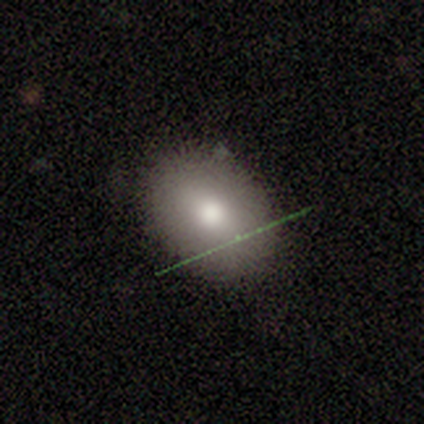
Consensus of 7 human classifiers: Smooth or featured: smooth — 100%
How rounded: in between — 86% (round — 14%)
Merging: none — 71% (minor disturbance — 29%)